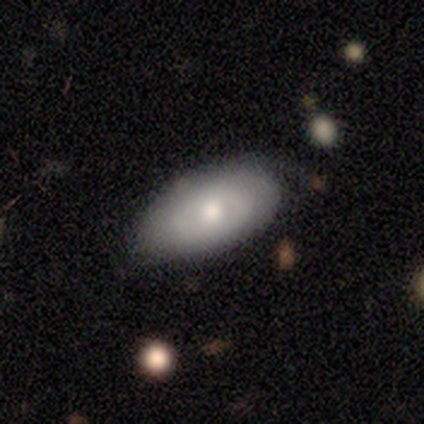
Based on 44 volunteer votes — This appears to be a smooth galaxy with no disk features (66%) that is in between round and cigar-shaped (90%). Merging: none (64%).